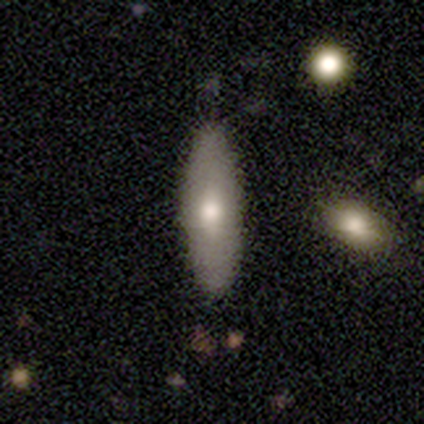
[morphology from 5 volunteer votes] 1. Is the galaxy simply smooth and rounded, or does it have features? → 80% smooth, 20% featured or disk, 0% star or artifact.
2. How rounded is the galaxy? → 75% cigar-shaped, 25% in between, 0% round.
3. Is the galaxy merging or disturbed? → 60% none, 20% minor disturbance, 20% merger, 0% major disturbance.